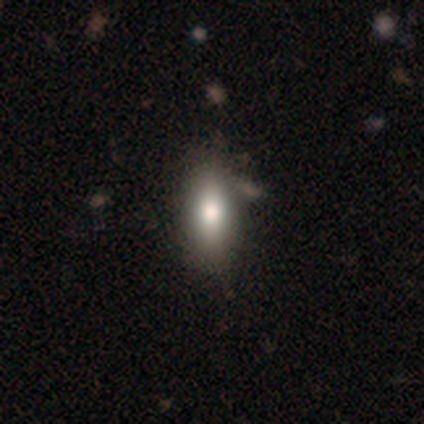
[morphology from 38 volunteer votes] Smooth or featured? 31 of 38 (82%) said smooth. How rounded? 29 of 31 (94%) said in between. Merging? 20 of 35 (57%) said none.